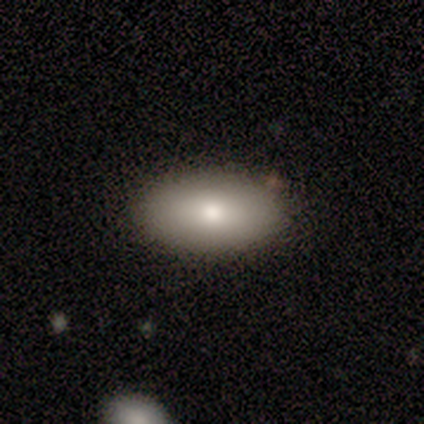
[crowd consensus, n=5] smooth 100%, featured or disk 0%, star or artifact 0%. Down the decision tree: how rounded — in between (100%); merging — none (80%).